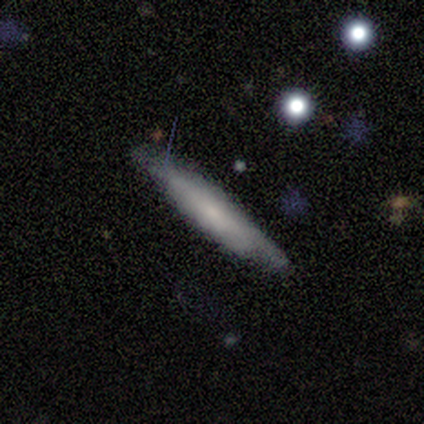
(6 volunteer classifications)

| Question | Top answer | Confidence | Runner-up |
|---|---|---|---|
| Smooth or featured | smooth | 67% | featured or disk (33%) |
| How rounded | cigar-shaped | 100% | — |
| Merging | none | 83% | minor disturbance (17%) |